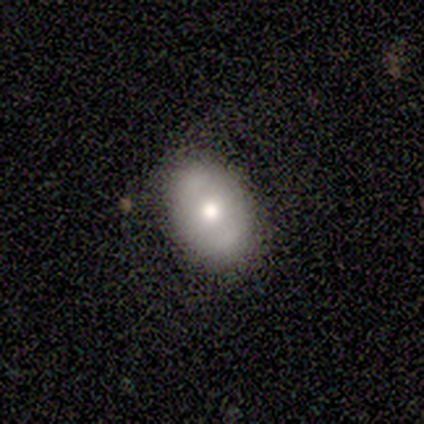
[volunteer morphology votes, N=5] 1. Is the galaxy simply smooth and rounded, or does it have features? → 60% featured or disk, 40% smooth, 0% star or artifact.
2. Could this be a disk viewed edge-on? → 67% no, 33% yes.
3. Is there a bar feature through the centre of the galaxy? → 100% no, 0% strong, 0% weak.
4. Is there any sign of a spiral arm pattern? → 100% no, 0% yes.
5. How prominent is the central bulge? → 50% moderate (tied), 50% small (tied), 0% dominant, 0% large, 0% none.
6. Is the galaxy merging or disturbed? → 60% none, 40% minor disturbance, 0% major disturbance, 0% merger.